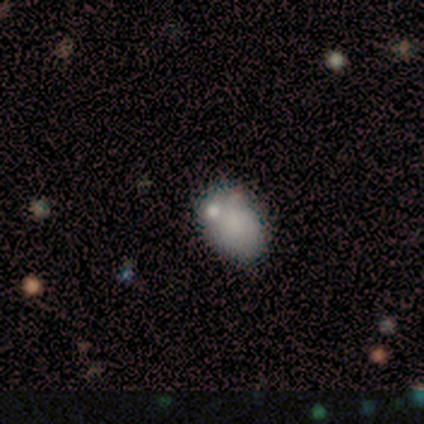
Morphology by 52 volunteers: Volunteers were most divided on "merging": none: 58%, merger: 24%, minor disturbance: 18%, major disturbance: 0%. More confident: how rounded — in between (81%); smooth or featured — smooth (71%).